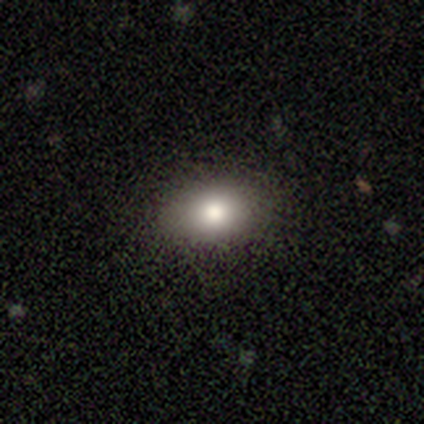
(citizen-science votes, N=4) smooth-or-featured: smooth: 100% | featured or disk: 0% | star or artifact: 0%
  how-rounded: in between: 75% | round: 25% | cigar-shaped: 0%
  merging: none: 100% | minor disturbance: 0% | major disturbance: 0% | merger: 0%